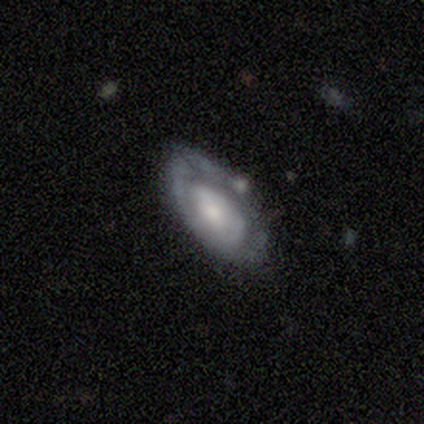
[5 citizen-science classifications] Smooth or featured? 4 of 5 (80%) said featured or disk. Edge-on disk? 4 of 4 (100%) said no. Bar? 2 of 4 (50%, tied with no) said weak. Spiral arms? 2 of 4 (50%, tied with no) said yes. Spiral winding? 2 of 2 (100%) said medium. Spiral arm count? 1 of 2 (50%, tied with 2) said 1. Bulge size? 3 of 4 (75%) said small. Merging? 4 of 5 (80%) said none.